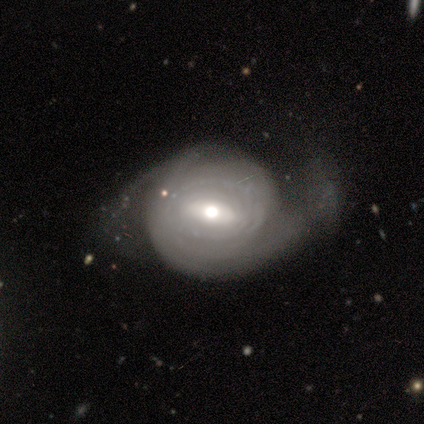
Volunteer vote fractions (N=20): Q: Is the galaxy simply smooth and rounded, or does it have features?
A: featured or disk — 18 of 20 (90%).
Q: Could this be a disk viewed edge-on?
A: no — 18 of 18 (100%).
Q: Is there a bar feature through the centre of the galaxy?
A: weak — 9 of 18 (50%).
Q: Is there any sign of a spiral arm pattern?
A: yes — 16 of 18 (89%).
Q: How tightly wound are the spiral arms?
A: tight — 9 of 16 (56%).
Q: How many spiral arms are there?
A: can't tell — 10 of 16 (62%).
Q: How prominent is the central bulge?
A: moderate — 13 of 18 (72%).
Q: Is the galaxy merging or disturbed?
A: minor disturbance — 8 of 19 (42%).